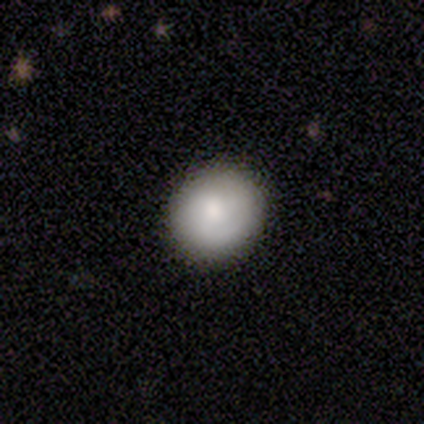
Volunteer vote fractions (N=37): A smooth galaxy with no disk features (73%) that is round (93%). Merging: none (85%).